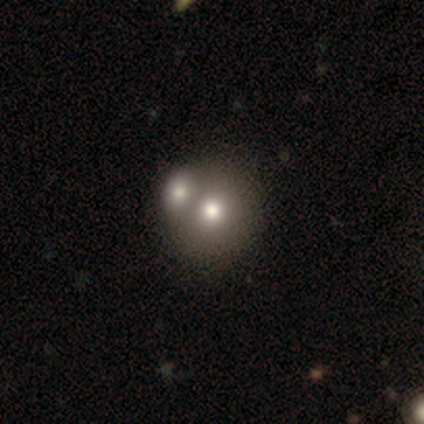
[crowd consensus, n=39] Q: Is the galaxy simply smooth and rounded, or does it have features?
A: smooth — 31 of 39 (79%).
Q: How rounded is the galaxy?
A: round — 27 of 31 (87%).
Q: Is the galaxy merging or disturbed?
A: merger — 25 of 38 (66%).